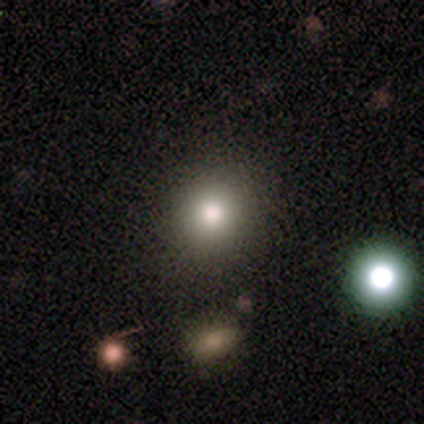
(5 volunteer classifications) Q: Smooth or featured?
A: smooth (100%)
Q: How rounded?
A: round (80%); runner-up: in between (20%)
Q: Merging?
A: none (100%)